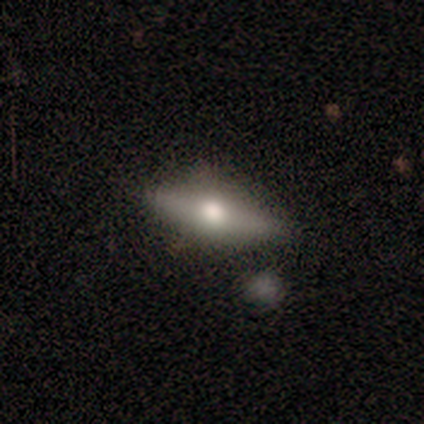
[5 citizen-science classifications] Q: Smooth or featured?
A: smooth (80%); runner-up: featured or disk (20%)
Q: How rounded?
A: cigar-shaped (100%)
Q: Merging?
A: none (80%); runner-up: minor disturbance (20%)